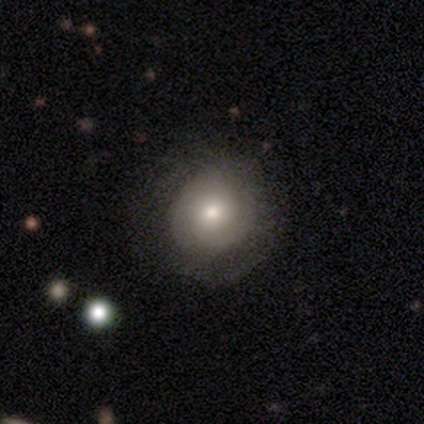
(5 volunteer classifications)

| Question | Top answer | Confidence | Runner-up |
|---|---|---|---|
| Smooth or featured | featured or disk | 100% | — |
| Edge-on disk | no | 80% | yes (20%) |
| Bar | weak | 50% | tied: no (50%) |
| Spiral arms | yes | 100% | — |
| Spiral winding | tight | 75% | loose (25%) |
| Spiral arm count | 2 | 75% | can't tell (25%) |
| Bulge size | moderate | 75% | small (25%) |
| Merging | none | 40% | tied: minor disturbance (40%) |